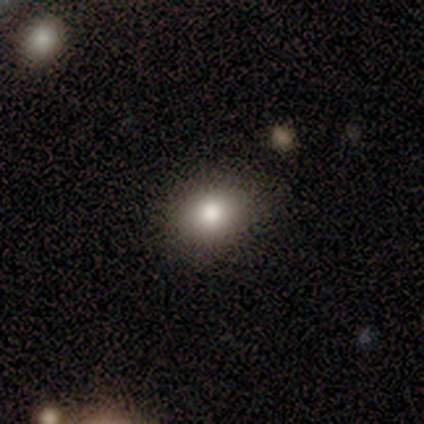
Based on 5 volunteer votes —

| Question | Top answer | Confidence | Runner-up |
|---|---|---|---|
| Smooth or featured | smooth | 100% | — |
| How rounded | in between | 60% | round (40%) |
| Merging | none | 60% | minor disturbance (40%) |